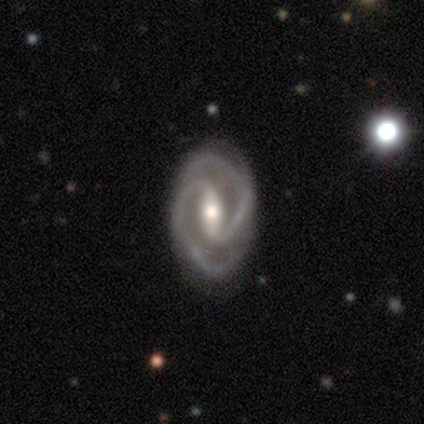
smooth_or_featured: featured or disk (p=1.00)
disk_edge_on: no (p=1.00)
bar: strong (p=0.50) [alt: weak p=0.33]
has_spiral_arms: yes (p=1.00)
spiral_winding: medium (p=0.50) [alt: tight p=0.33]
spiral_arm_count: 2 (p=0.83) [alt: 3 p=0.17]
bulge_size: moderate (p=0.67) [alt: small p=0.33]
merging: none (p=0.83) [alt: minor disturbance p=0.17]